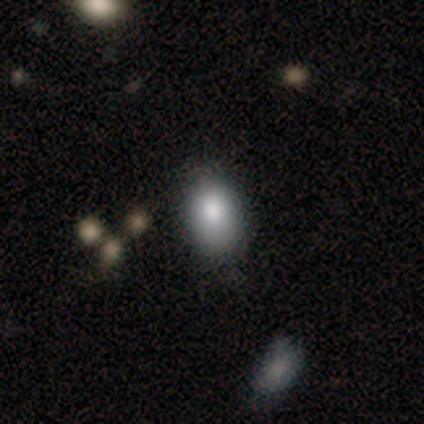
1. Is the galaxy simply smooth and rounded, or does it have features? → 60% smooth, 40% featured or disk, 0% star or artifact.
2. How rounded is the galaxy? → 100% in between, 0% round, 0% cigar-shaped.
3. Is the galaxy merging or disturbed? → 100% none, 0% minor disturbance, 0% major disturbance, 0% merger.